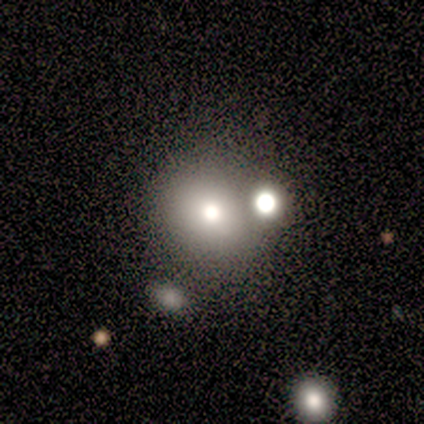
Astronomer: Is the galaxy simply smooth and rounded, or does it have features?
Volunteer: smooth — 68%.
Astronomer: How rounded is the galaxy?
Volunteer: round — 89%.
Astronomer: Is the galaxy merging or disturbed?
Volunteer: none — 58%.